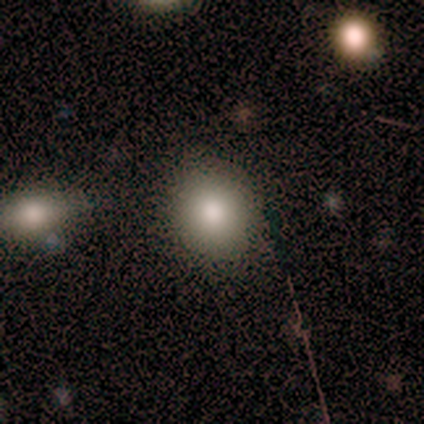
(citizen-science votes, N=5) A smooth galaxy with no disk features (60%) that is round (67%). Merging: none (80%).